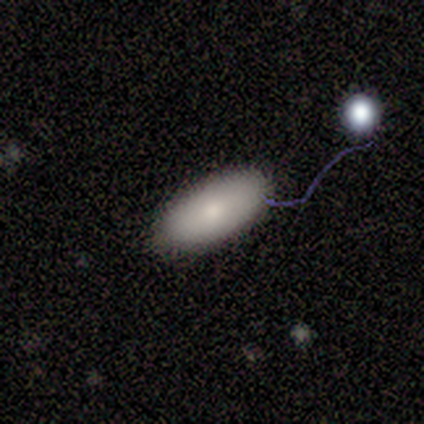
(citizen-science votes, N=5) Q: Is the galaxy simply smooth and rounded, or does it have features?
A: smooth — 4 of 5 (80%).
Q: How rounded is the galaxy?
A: in between — 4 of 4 (100%).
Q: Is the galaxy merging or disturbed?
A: none — 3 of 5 (60%).